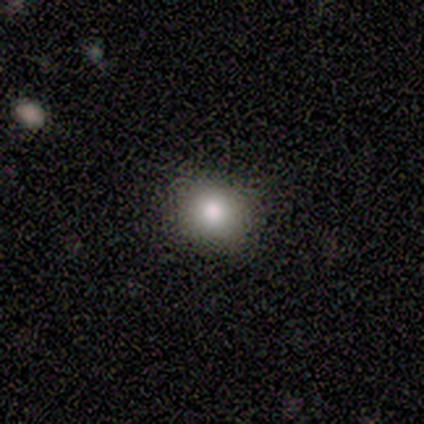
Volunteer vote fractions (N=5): A smooth galaxy with no disk features (100%) that is round (80%).

Vote fractions:
- Smooth or featured? smooth: 100% / featured or disk: 0% / star or artifact: 0%
- How rounded? round: 80% / in between: 20% / cigar-shaped: 0%
- Merging? none: 100% / minor disturbance: 0% / major disturbance: 0% / merger: 0%